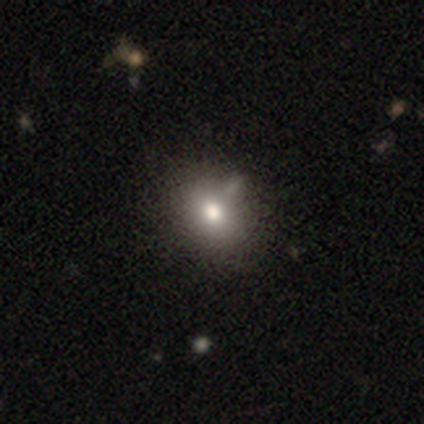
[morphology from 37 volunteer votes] Overall: smooth (73%). How rounded: in between (63%; round 37%). Merging: none (44%; minor disturbance 18%).